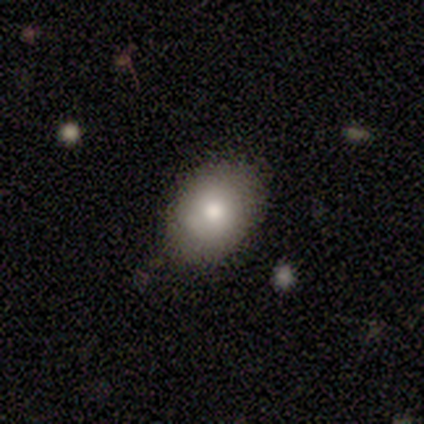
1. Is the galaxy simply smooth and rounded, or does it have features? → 80% smooth, 20% star or artifact, 0% featured or disk.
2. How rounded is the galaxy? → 100% in between, 0% round, 0% cigar-shaped.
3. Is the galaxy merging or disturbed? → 75% none, 25% minor disturbance, 0% major disturbance, 0% merger.